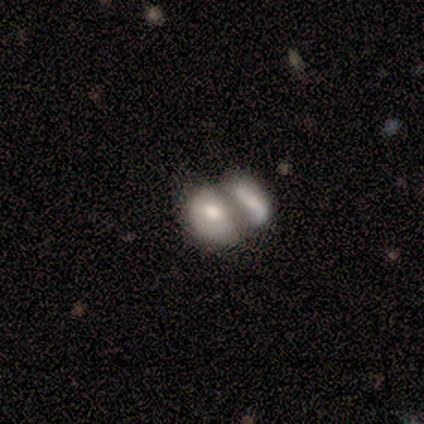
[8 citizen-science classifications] Overall: smooth (62%; featured or disk 38%). How rounded: in between (80%). Merging: merger (50%; major disturbance 25%).